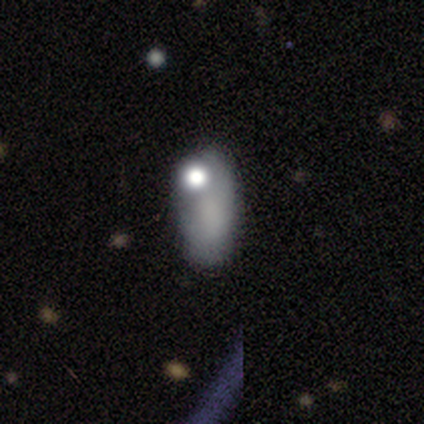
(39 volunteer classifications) A smooth galaxy with no disk features (54%) that is in between round and cigar-shaped (90%). Merging: none (45%).